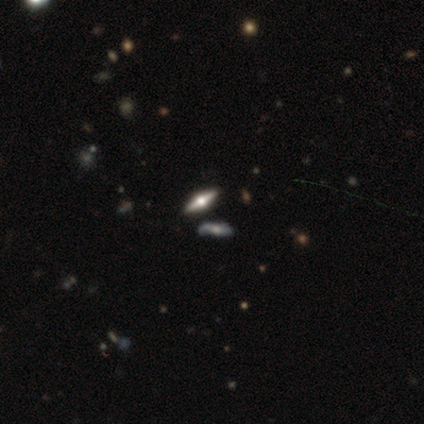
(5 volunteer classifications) This is clearly a star or artifact rather than a galaxy (80%).